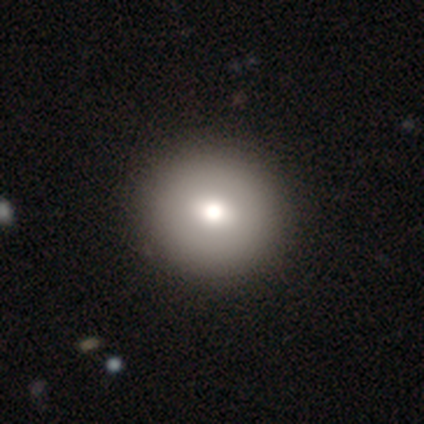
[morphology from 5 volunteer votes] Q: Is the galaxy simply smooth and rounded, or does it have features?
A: smooth — 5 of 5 (100%).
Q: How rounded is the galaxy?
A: round — 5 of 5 (100%).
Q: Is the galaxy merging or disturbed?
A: none — 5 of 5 (100%).